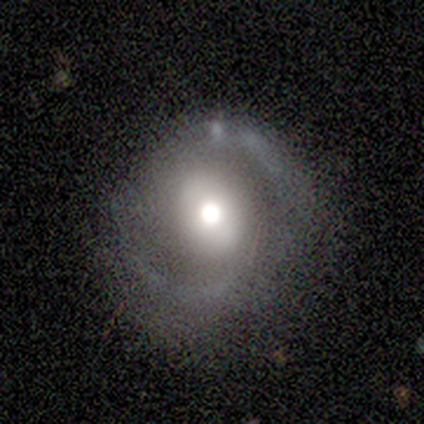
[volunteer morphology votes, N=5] Smooth or featured? featured or disk (80%)
Edge-on disk? no (100%)
Bar? no (75%)
Spiral arms? no (100%)
Bulge size? moderate (75%)
Merging? none (100%)